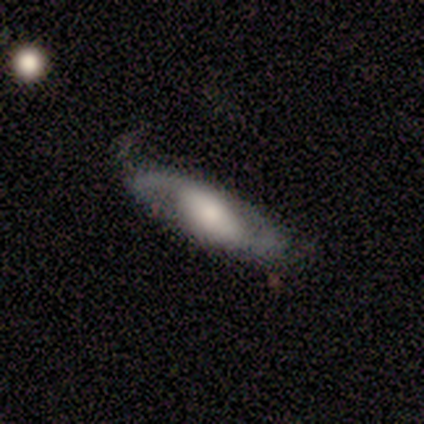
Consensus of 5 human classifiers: featured or disk 80%, smooth 20%, star or artifact 0%. Down the decision tree: edge-on disk — no (100%); bar — weak (50%); spiral arms — yes (75%); spiral arm count — 2 (100%); spiral winding — loose (67%); bulge size — small (50%); merging — none (60%).